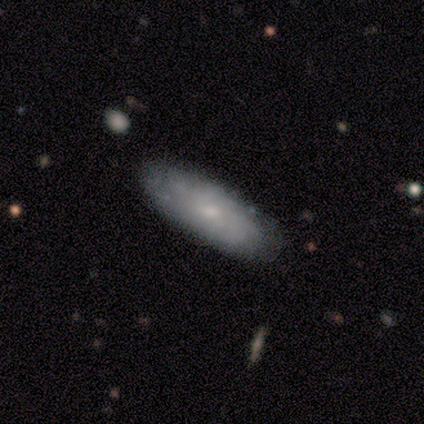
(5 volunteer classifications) Volunteers were most divided on "smooth or featured" (2-way tie): smooth: 40%, featured or disk: 40%, star or artifact: 20%; "how rounded" (2-way tie): in between: 50%, cigar-shaped: 50%, round: 0%. More confident: merging — none (75%).